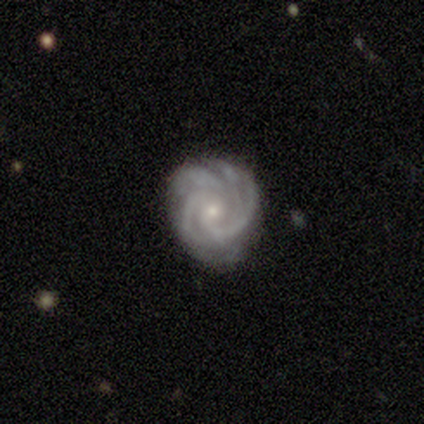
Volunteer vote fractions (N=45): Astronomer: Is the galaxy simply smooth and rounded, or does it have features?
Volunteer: featured or disk — 87%.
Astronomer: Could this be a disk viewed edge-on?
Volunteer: no — 100%.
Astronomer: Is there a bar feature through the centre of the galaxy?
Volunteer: no — 69%.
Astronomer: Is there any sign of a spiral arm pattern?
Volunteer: yes — 100%.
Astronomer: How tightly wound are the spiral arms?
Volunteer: tight — 72%.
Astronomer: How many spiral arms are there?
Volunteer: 4 — 38% (runner-up: 3, 23%).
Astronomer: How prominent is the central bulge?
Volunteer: small — 85%.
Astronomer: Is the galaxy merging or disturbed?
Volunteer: none — 78%.